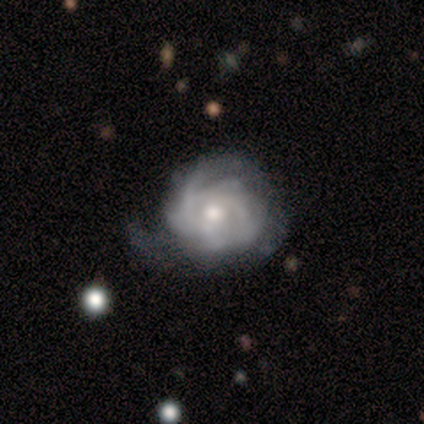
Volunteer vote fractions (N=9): A featured or disk galaxy (89%) with a weak bar (50%), tight (62%) spiral arms (100%) and a moderate central bulge (62%). Merging: minor disturbance (44%).